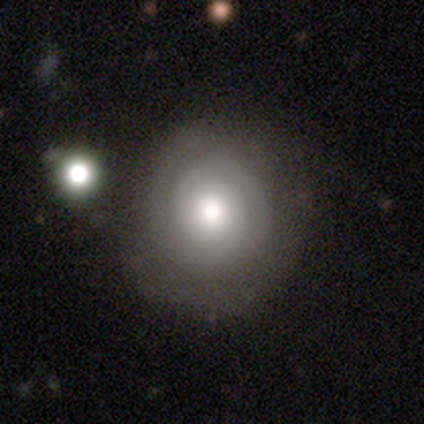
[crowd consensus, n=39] Morphology: type=featured or disk (82%); edge-on=no (100%); bar=no (81%); spiral arms=yes (88%); winding=tight (86%); arm count=2 (57%); bulge=moderate (66%); merging=none (68%).